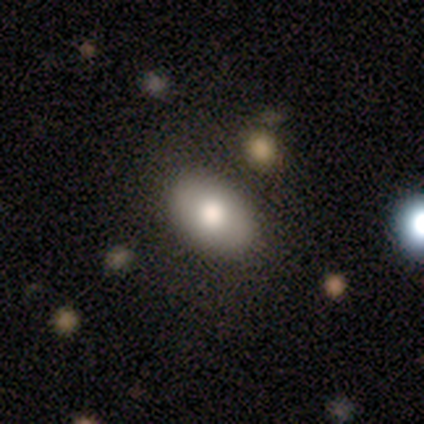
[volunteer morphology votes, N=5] Volunteers were most divided on "merging": none: 60%, minor disturbance: 40%, major disturbance: 0%, merger: 0%. More confident: smooth or featured — smooth (100%); how rounded — in between (100%).